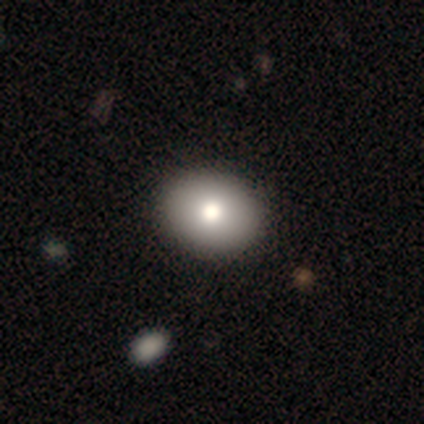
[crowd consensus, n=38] Smooth or featured: smooth — 74% (featured or disk — 21%)
How rounded: in between — 75% (round — 25%)
Merging: none — 72% (minor disturbance — 3%)